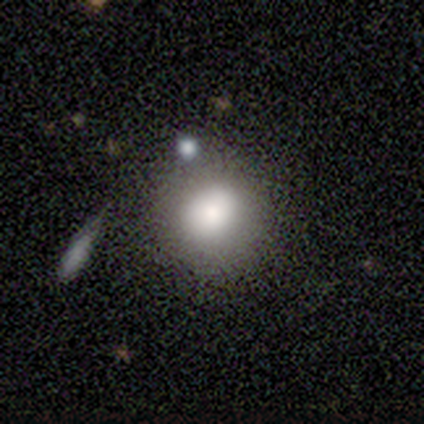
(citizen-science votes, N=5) A smooth galaxy with no disk features (80%) that is round (50%, tied with in between). Merging: none (80%).